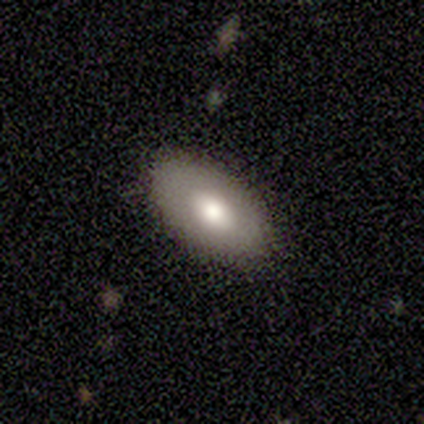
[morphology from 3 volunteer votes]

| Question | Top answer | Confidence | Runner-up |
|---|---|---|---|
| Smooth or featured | featured or disk | 67% | smooth (33%) |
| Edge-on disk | yes | 50% | tied: no (50%) |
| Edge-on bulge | rounded | 100% | — |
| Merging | none | 100% | — |